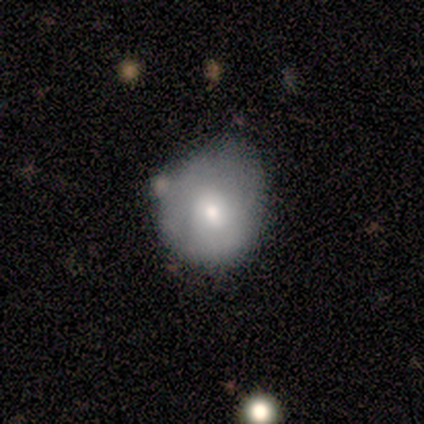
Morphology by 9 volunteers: A smooth galaxy with no disk features (89%) that is round (75%).

Vote fractions:
- Smooth or featured? smooth: 89% / featured or disk: 11% / star or artifact: 0%
- How rounded? round: 75% / in between: 25% / cigar-shaped: 0%
- Merging? none: 56% / minor disturbance: 33% / merger: 11% / major disturbance: 0%